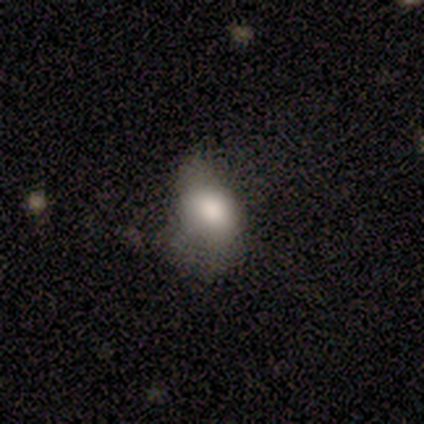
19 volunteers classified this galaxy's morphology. A smooth galaxy with no disk features (68%) that is in between round and cigar-shaped (62%).

Vote fractions:
- Smooth or featured? smooth: 68% / featured or disk: 26% / star or artifact: 5%
- How rounded? in between: 62% / round: 38% / cigar-shaped: 0%
- Merging? none: 56% / minor disturbance: 28% / major disturbance: 17% / merger: 0%